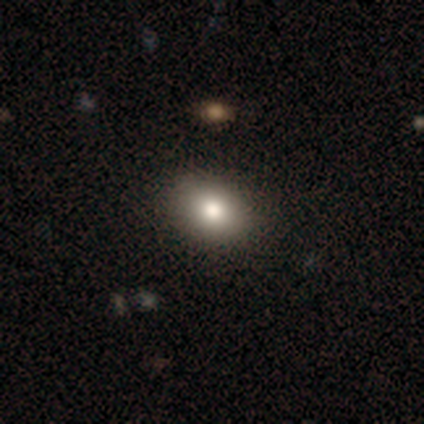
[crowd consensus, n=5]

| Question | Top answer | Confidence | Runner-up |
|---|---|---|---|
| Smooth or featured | smooth | 80% | featured or disk (20%) |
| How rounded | round | 50% | tied: in between (50%) |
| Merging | none | 80% | minor disturbance (20%) |